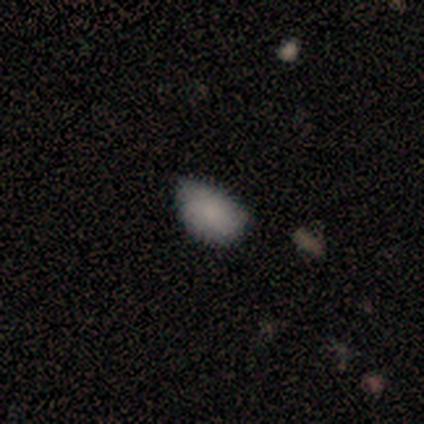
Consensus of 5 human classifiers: Smooth or featured: smooth — 80% (featured or disk — 20%)
How rounded: in between — 100%
Merging: none — 40% (tied with major disturbance — 40%)